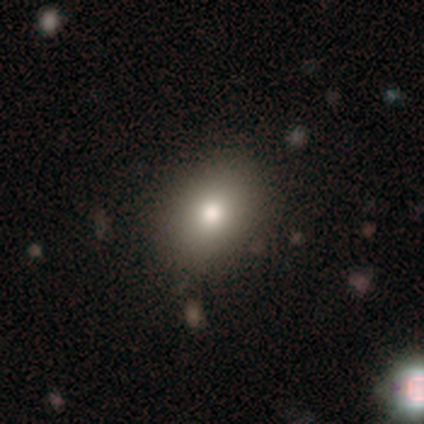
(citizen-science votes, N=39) Volunteers were most divided on "how rounded": in between: 68%, round: 29%, cigar-shaped: 3%. More confident: smooth or featured — smooth (87%); merging — none (58%).